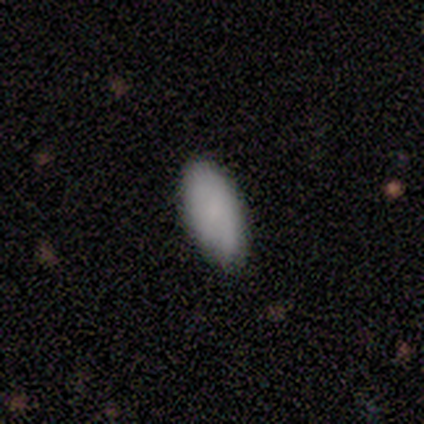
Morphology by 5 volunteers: smooth-or-featured: smooth: 100% | featured or disk: 0% | star or artifact: 0%
  how-rounded: in between: 100% | round: 0% | cigar-shaped: 0%
  merging: none: 80% | minor disturbance: 20% | major disturbance: 0% | merger: 0%